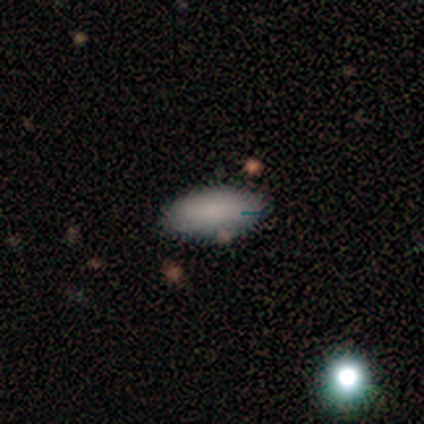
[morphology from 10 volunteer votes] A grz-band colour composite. It shows a smooth galaxy with no disk features (80%) that is in between round and cigar-shaped (88%). Merging: none (89%).